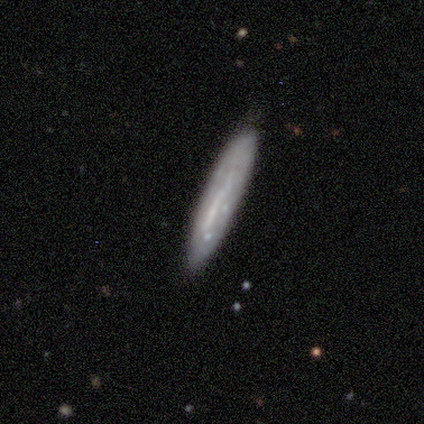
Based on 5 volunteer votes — Smooth or featured: smooth — 60% (featured or disk — 20%)
How rounded: cigar-shaped — 100%
Merging: none — 100%